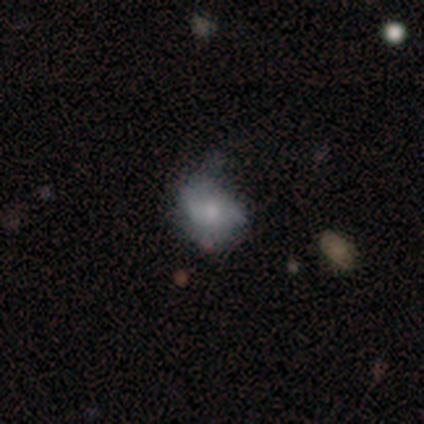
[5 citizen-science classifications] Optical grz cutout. It shows a featured or disk galaxy (60%) with no bar (67%), no spiral arms (67%) and a small central bulge (67%). Merging: minor disturbance (60%).